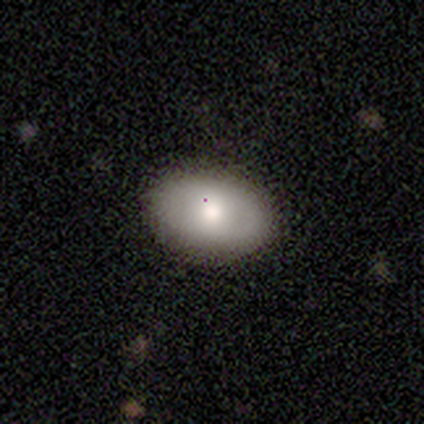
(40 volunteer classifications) Overall: smooth (62%; featured or disk 28%). How rounded: in between (92%). Merging: none (92%).